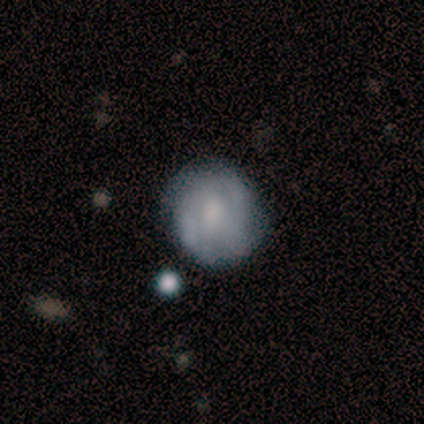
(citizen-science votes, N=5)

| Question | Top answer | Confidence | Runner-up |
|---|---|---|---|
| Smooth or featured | featured or disk | 60% | smooth (40%) |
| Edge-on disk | no | 100% | — |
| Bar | weak | 100% | — |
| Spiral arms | yes | 67% | no (33%) |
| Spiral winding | tight | 100% | — |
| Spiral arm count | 2 | 100% | — |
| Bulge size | moderate | 67% | small (33%) |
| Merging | none | 80% | major disturbance (20%) |